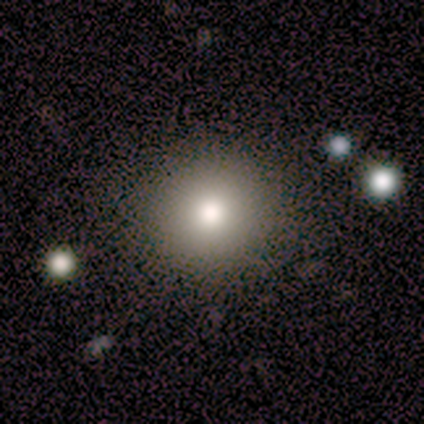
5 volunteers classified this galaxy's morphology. This appears to be a smooth galaxy with no disk features (80%) that is round (75%). Merging: none (80%).